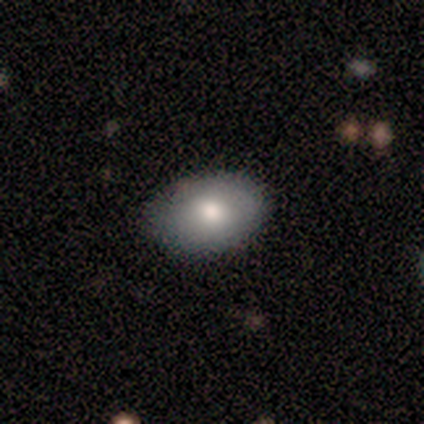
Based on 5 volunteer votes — Smooth or featured?
  - smooth: 80% *
  - featured or disk: 20%
  - star or artifact: 0%
How rounded?
  - in between: 100% *
  - round: 0%
  - cigar-shaped: 0%
Merging?
  - none: 100% *
  - minor disturbance: 0%
  - major disturbance: 0%
  - merger: 0%